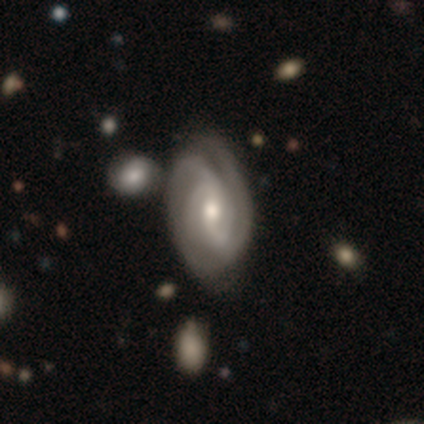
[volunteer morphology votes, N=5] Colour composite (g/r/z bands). It shows a featured or disk galaxy (100%) with no bar (60%), 2 (40%) tight (80%) spiral arms (100%) and a moderate central bulge (80%). Merging: none (100%).